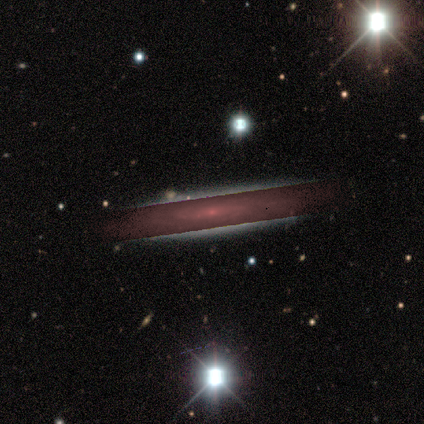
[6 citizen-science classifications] A featured or disk galaxy (83%) with no bar (67%), tight (100%) spiral arms (67%) and a small central bulge (100%). Merging: none (60%).